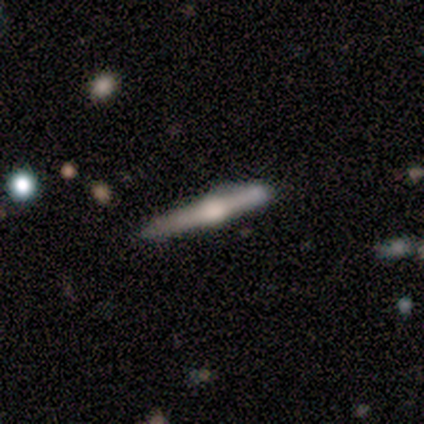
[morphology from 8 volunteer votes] This appears to be a featured or disk galaxy (88%) viewed edge-on (86%) with a rounded central bulge (100%). Merging: none (38%, tied with minor disturbance).